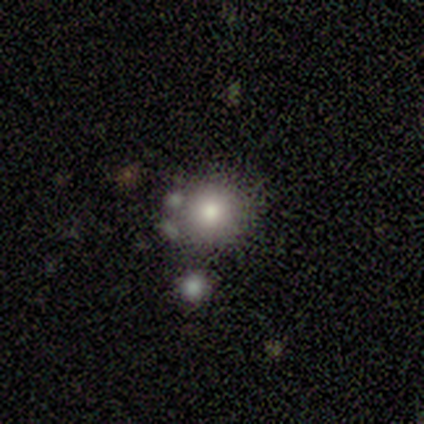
This is clearly a smooth galaxy (100%). How rounded: clearly round (80%). Merging: likely none (60%).